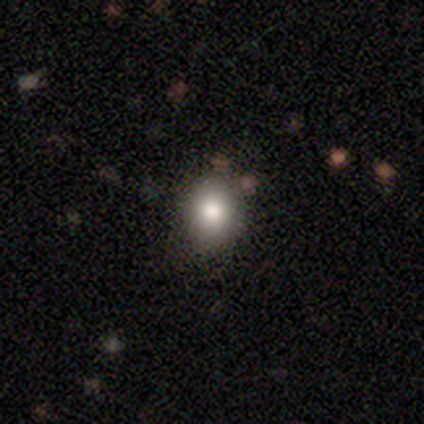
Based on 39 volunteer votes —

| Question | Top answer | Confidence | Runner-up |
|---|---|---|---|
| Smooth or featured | smooth | 85% | star or artifact (13%) |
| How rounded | round | 91% | in between (9%) |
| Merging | none | 74% | minor disturbance (21%) |